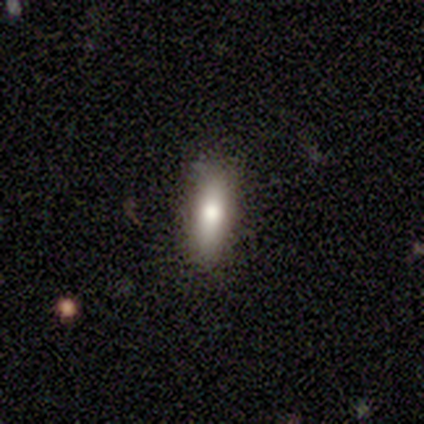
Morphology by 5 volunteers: This is clearly a smooth galaxy (80%). How rounded: likely cigar-shaped (75%). Merging: possibly none (50%, tied with minor disturbance).